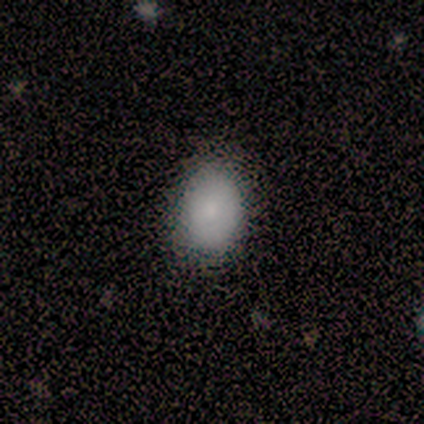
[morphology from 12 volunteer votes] Volunteers were most divided on "merging": none: 83%, minor disturbance: 17%, major disturbance: 0%, merger: 0%. More confident: smooth or featured — smooth (100%); how rounded — in between (92%).